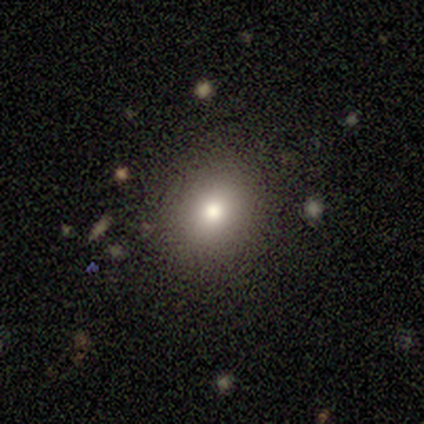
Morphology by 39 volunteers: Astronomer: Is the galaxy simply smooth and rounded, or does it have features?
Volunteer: smooth — 72%.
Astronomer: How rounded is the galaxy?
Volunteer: round — 79%.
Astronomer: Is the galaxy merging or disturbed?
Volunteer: none — 94%.